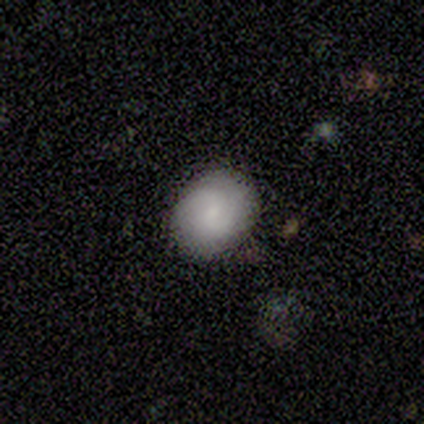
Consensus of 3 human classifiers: Morphology: type=smooth (100%); roundness=round (33%, tied with in between and cigar-shaped); merging=none (100%).